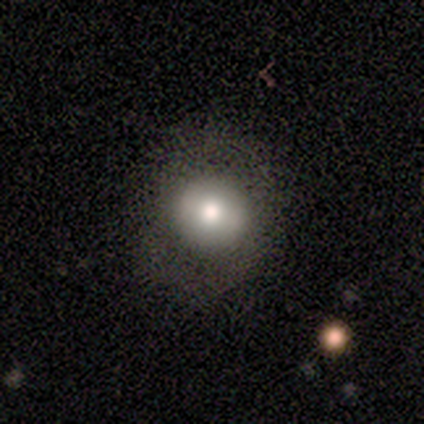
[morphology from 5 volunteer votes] type=smooth (60%); roundness=round (100%); merging=none (75%).